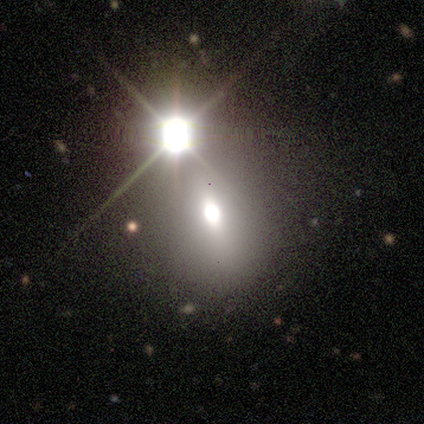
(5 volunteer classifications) smooth_or_featured: smooth (p=0.60) [alt: featured or disk p=0.20]
how_rounded: in between (p=1.00)
merging: none (p=0.75) [alt: merger p=0.25]